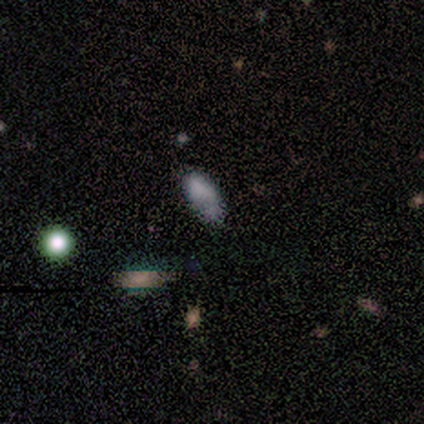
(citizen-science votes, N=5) smooth 80%, star or artifact 20%, featured or disk 0%. Down the decision tree: how rounded — in between (100%); merging — minor disturbance (75%).